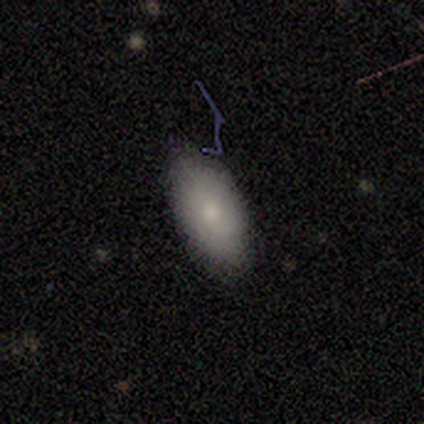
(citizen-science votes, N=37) Smooth or featured? smooth (70%)
How rounded? in between (96%)
Merging? none (71%)